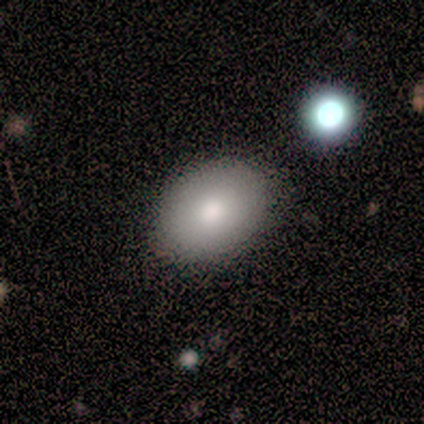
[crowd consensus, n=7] Morphology: type=smooth (57%); roundness=in between (75%); merging=none (100%).